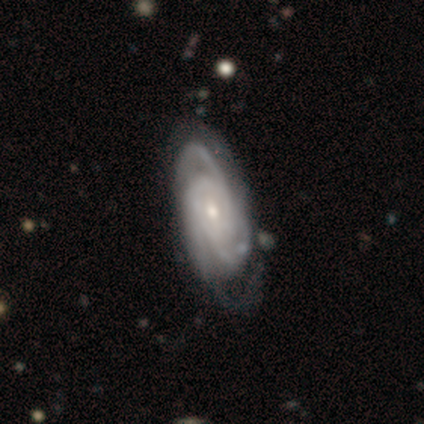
A featured or disk galaxy (90%) with no bar (67%), 3 (67%) tight (73%) spiral arms (100%) and a small central bulge (61%).

Vote fractions:
- Smooth or featured? featured or disk: 90% / smooth: 8% / star or artifact: 2%
- Edge-on disk? no: 92% / yes: 8%
- Bar? no: 67% / weak: 24% / strong: 9%
- Spiral arms? yes: 100% / no: 0%
- Spiral winding? tight: 73% / medium: 27% / loose: 0%
- Spiral arm count? 3: 67% / 4: 12% / 2: 9% / more than 4: 6% / can't tell: 6% / 1: 0%
- Bulge size? small: 61% / moderate: 30% / large: 9% / dominant: 0% / none: 0%
- Merging? minor disturbance: 31% / none: 28% / major disturbance: 10% / merger: 0%